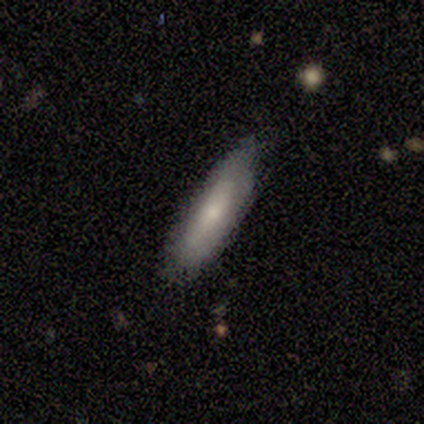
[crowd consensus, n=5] smooth 100%, featured or disk 0%, star or artifact 0%. Down the decision tree: how rounded — cigar-shaped (60%); merging — none (80%).